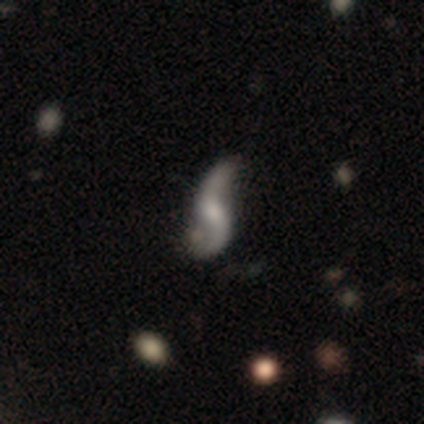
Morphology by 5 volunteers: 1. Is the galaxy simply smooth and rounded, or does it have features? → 100% featured or disk, 0% smooth, 0% star or artifact.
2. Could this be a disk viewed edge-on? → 80% no, 20% yes.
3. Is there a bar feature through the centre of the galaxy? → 50% weak (tied), 50% no (tied), 0% strong.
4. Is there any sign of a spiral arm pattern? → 100% yes, 0% no.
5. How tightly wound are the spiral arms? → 100% loose, 0% tight, 0% medium.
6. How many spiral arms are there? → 75% 2, 25% 3, 0% 1, 0% 4, 0% more than 4, 0% can't tell.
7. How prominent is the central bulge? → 50% small, 25% large, 25% moderate, 0% dominant, 0% none.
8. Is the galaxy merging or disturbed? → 40% none (tied), 40% merger (tied), 20% minor disturbance, 0% major disturbance.